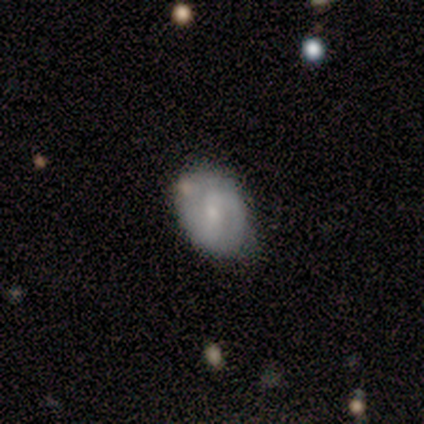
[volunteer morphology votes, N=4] Smooth or featured?
  - smooth: 75% *
  - featured or disk: 25%
  - star or artifact: 0%
How rounded?
  - in between: 100% *
  - round: 0%
  - cigar-shaped: 0%
Merging?
  - none: 50% * (tied)
  - minor disturbance: 50% * (tied)
  - major disturbance: 0%
  - merger: 0%